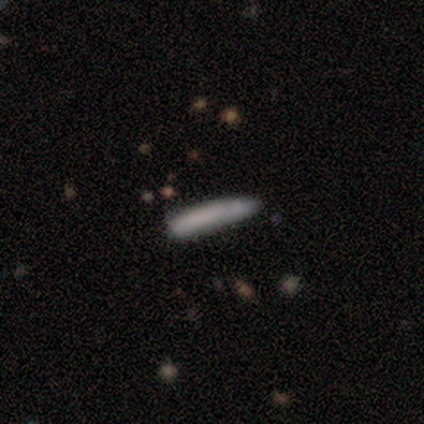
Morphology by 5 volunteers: Smooth or featured? 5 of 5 (100%) said smooth. How rounded? 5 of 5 (100%) said cigar-shaped. Merging? 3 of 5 (60%) said none.